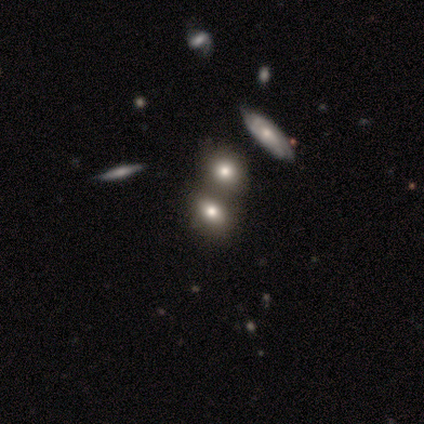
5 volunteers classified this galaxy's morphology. This is likely a smooth galaxy (60%). How rounded: likely in between (67%). Merging: possibly none (50%, tied with merger).